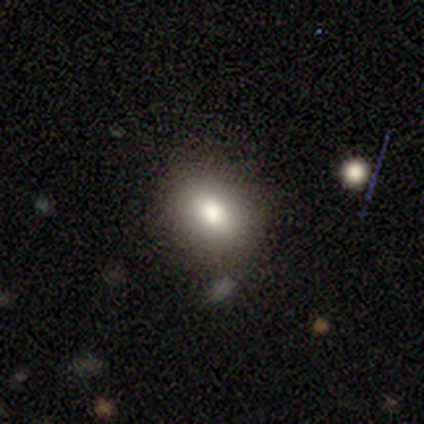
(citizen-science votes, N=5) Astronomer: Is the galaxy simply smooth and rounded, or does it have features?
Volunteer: smooth — 80%.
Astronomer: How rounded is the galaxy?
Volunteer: in between — 75%.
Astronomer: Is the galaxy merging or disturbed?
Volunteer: none — 80%.